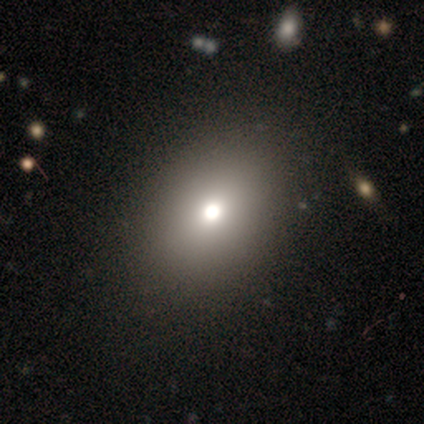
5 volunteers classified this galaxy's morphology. This is marginally a smooth galaxy (40%, tied with star or artifact). How rounded: possibly round (50%, tied with in between). Merging: likely none (67%).